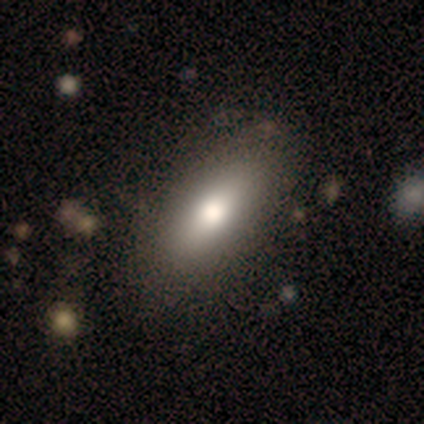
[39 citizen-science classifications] Morphology: type=smooth (69%); roundness=in between (78%); merging=none (38%).